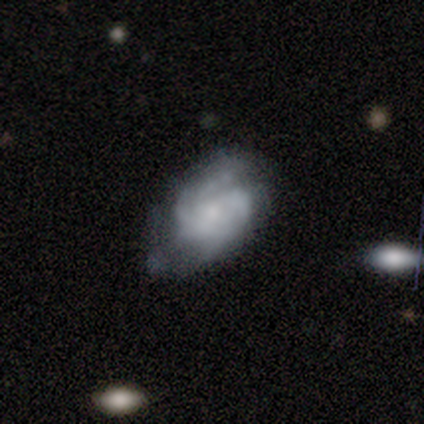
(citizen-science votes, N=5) featured or disk 60%, smooth 40%, star or artifact 0%. Down the decision tree: edge-on disk — no (100%); bar — no (67%); spiral arms — yes (100%); spiral arm count — 2 (33%, tied with more than 4 and can't tell); spiral winding — tight (67%); bulge size — none (67%); merging — none (40%, tied with minor disturbance).